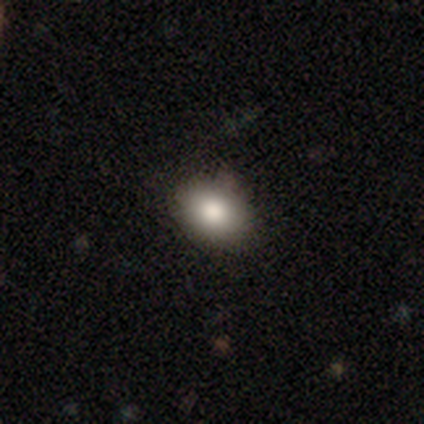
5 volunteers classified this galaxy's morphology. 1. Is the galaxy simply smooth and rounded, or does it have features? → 100% smooth, 0% featured or disk, 0% star or artifact.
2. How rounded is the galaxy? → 60% in between, 40% round, 0% cigar-shaped.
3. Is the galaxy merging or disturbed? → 100% none, 0% minor disturbance, 0% major disturbance, 0% merger.